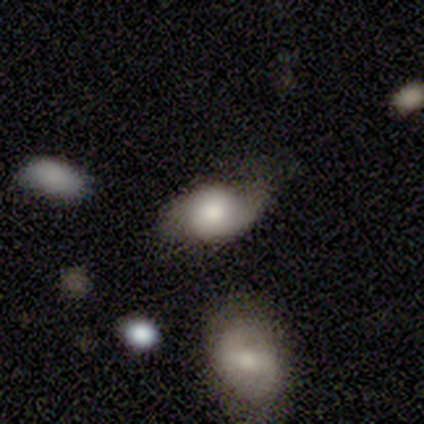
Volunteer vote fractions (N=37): Smooth or featured? 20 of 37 (54%) said smooth. How rounded? 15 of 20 (75%) said in between. Merging? 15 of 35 (43%) said minor disturbance.